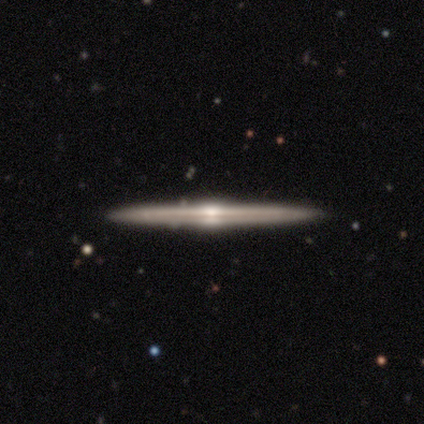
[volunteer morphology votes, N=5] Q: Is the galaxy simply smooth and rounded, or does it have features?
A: featured or disk — 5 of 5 (100%).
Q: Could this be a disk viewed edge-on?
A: yes — 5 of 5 (100%).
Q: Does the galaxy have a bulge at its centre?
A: rounded — 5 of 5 (100%).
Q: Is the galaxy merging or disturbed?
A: none — 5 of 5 (100%).